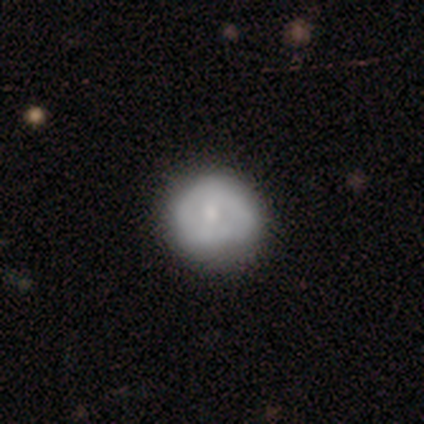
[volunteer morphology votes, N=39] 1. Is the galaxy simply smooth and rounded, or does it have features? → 54% featured or disk, 46% smooth, 0% star or artifact.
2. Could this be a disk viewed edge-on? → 100% no, 0% yes.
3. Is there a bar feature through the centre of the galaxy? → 76% no, 19% weak, 5% strong.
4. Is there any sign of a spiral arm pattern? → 81% no, 19% yes.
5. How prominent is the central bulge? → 57% small, 29% moderate, 10% none, 5% large, 0% dominant.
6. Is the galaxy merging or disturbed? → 33% none, 23% minor disturbance, 0% major disturbance, 0% merger.